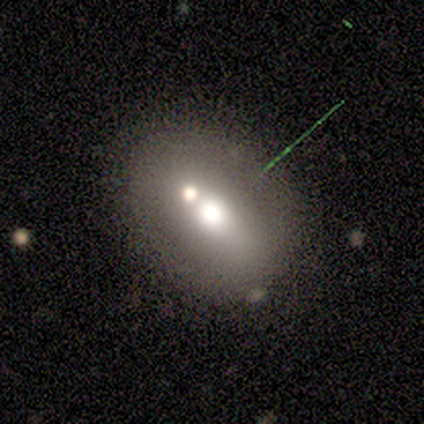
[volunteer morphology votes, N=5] Smooth or featured: smooth — 60% (featured or disk — 20%)
How rounded: in between — 100%
Merging: none — 50% (major disturbance — 25%)